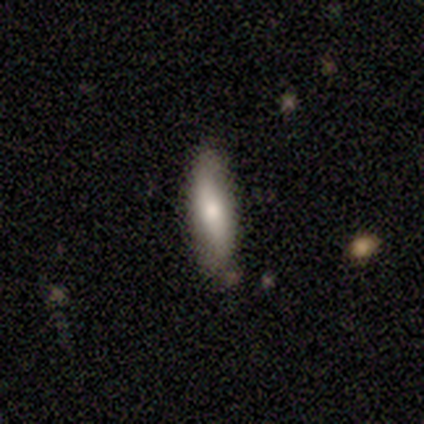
Smooth or featured?
  - smooth: 100% *
  - featured or disk: 0%
  - star or artifact: 0%
How rounded?
  - cigar-shaped: 80% *
  - in between: 20%
  - round: 0%
Merging?
  - none: 80% *
  - minor disturbance: 20%
  - major disturbance: 0%
  - merger: 0%